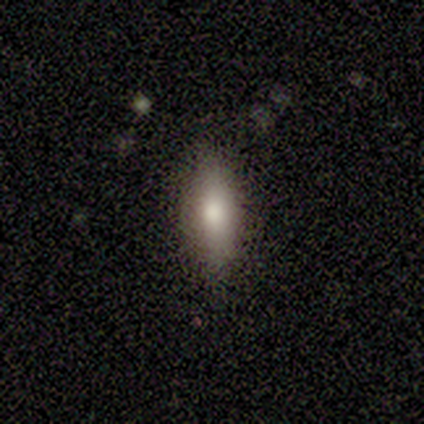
This is clearly a smooth galaxy (100%). How rounded: clearly in between (100%). Merging: likely none (60%).